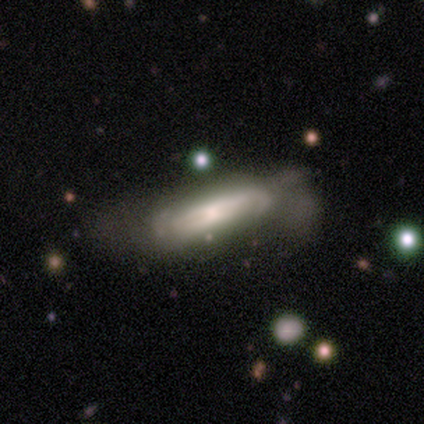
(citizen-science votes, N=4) A featured or disk galaxy (50%) with a weak bar (50%, tied with no), 2 (100%) tight (100%) spiral arms (50%, tied with no) and a moderate central bulge (50%, tied with small).

Vote fractions:
- Smooth or featured? featured or disk: 50% / smooth: 25% / star or artifact: 25%
- Edge-on disk? no: 100% / yes: 0%
- Bar? weak: 50% (tied) / no: 50% (tied) / strong: 0%
- Spiral arms? yes: 50% (tied) / no: 50% (tied)
- Spiral winding? tight: 100% / medium: 0% / loose: 0%
- Spiral arm count? 2: 100% / 1: 0% / 3: 0% / 4: 0% / more than 4: 0% / can't tell: 0%
- Bulge size? moderate: 50% (tied) / small: 50% (tied) / dominant: 0% / large: 0% / none: 0%
- Merging? minor disturbance: 67% / major disturbance: 33% / none: 0% / merger: 0%